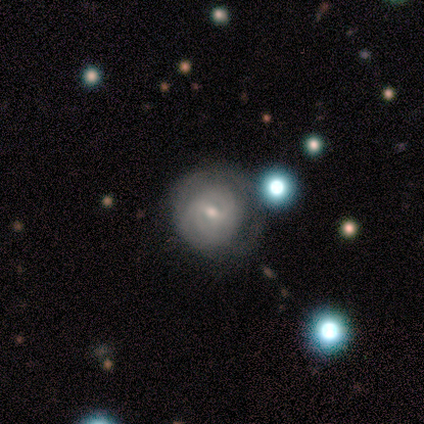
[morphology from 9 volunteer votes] Smooth or featured? featured or disk (78%)
Edge-on disk? no (100%)
Bar? weak (57%)
Spiral arms? yes (86%)
Spiral winding? tight (67%)
Spiral arm count? can't tell (83%)
Bulge size? moderate (57%)
Merging? none (67%)